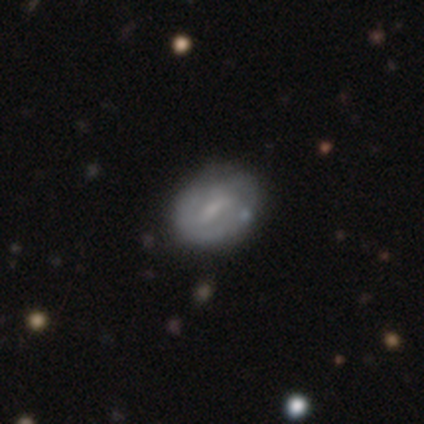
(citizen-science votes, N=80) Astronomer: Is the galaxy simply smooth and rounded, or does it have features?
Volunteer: featured or disk — 57% (runner-up: smooth, 34%).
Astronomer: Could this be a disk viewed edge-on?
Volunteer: no — 91%.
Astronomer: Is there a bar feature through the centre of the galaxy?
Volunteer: weak — 74%.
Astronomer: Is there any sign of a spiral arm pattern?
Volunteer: yes — 50%, tied with no at 50%.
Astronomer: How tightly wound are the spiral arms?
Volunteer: tight — 52% (runner-up: medium, 33%).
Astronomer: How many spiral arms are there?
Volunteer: can't tell — 48%.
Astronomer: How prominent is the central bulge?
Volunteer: small — 50% (runner-up: moderate, 29%).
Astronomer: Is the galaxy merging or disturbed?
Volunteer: none — 33% (runner-up: minor disturbance, 14%).